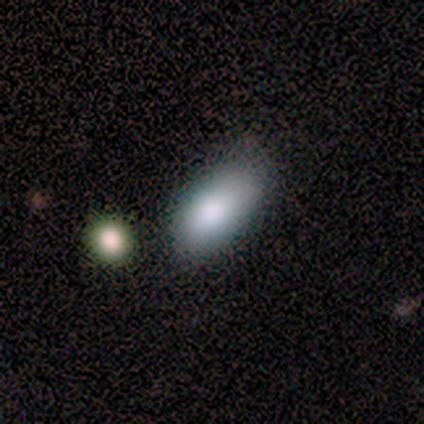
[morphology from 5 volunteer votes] type=smooth (100%); roundness=in between (100%); merging=none (80%).